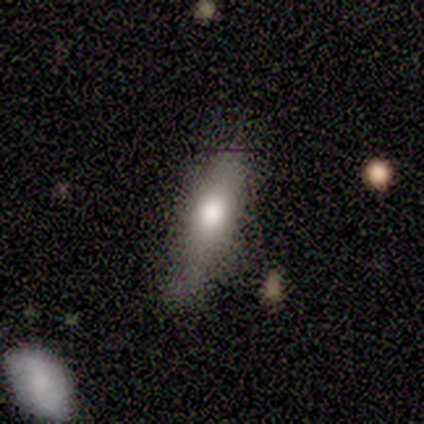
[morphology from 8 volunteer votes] smooth 75%, featured or disk 25%, star or artifact 0%. Down the decision tree: how rounded — cigar-shaped (67%); merging — none (50%).